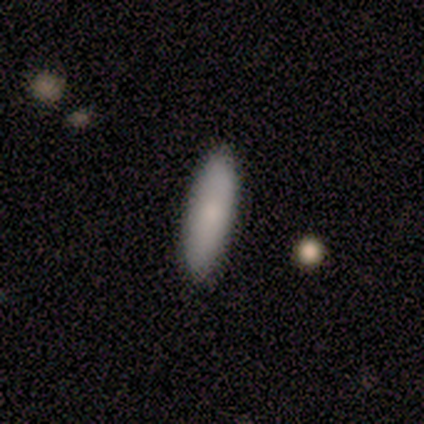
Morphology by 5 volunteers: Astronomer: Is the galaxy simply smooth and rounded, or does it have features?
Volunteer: smooth — 80%.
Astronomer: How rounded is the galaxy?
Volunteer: in between — 75%.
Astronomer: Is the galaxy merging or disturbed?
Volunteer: none — 100%.